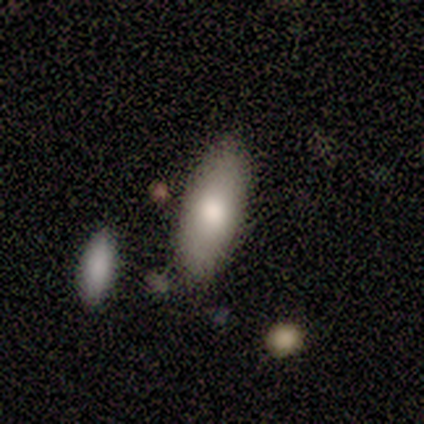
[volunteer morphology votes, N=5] Smooth or featured: smooth — 100%
How rounded: in between — 100%
Merging: none — 100%